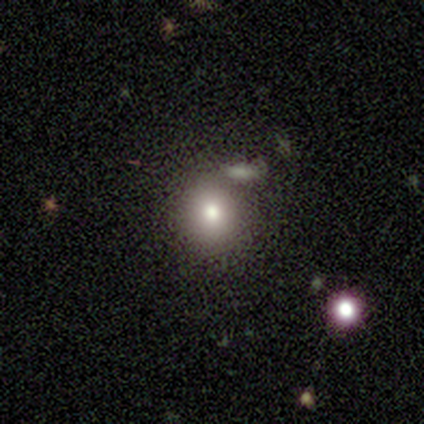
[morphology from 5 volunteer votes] type=smooth (80%); roundness=round (75%); merging=minor disturbance (75%).